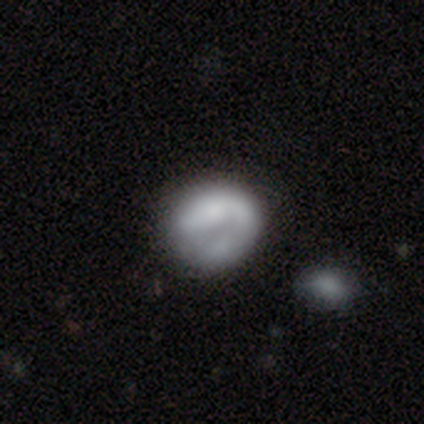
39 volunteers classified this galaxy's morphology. This is likely a featured or disk galaxy (62%). It is clearly not viewed edge-on (96%). Bar: likely no (74%). Spiral arm pattern: likely no (70%). Central bulge: likely none (61%). Merging: possibly none (47%).